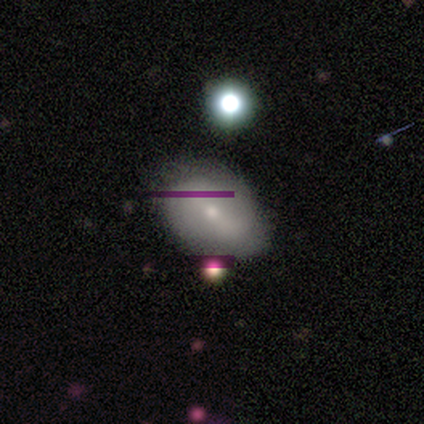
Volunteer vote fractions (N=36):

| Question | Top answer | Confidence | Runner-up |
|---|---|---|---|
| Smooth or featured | smooth | 47% | featured or disk (39%) |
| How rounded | in between | 76% | round (24%) |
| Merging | none | 68% | minor disturbance (23%) |